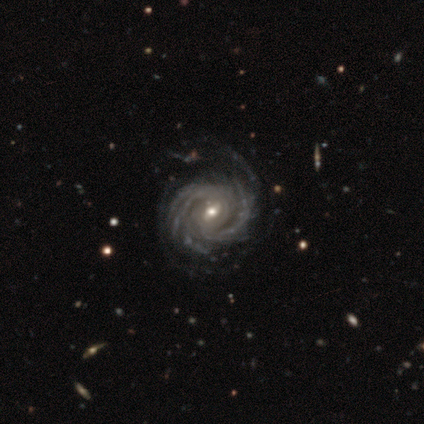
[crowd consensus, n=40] Volunteers were most divided on "spiral arm count": can't tell: 25%, 2: 20%, 4: 20%, more than 4: 20%, 3: 15%, 1: 0%. More confident: smooth or featured — featured or disk (100%); edge-on disk — no (100%); spiral arms — yes (100%); spiral winding — tight (88%); bulge size — moderate (68%); merging — none (60%); bar — weak (55%).